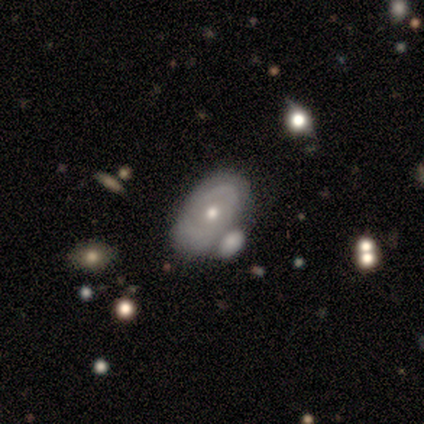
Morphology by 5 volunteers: Smooth or featured? featured or disk (60%)
Edge-on disk? no (100%)
Bar? no (67%)
Spiral arms? no (67%)
Bulge size? small (67%)
Merging? merger (50%)